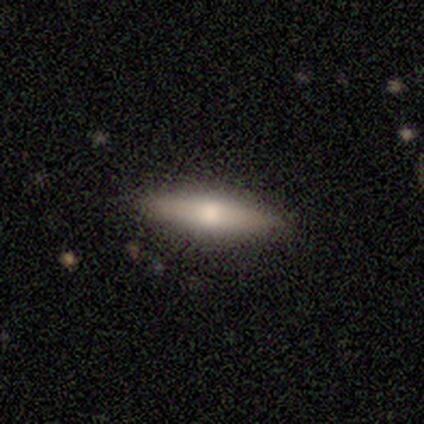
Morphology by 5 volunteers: Volunteers were most divided on "how rounded": cigar-shaped: 60%, in between: 40%, round: 0%. More confident: smooth or featured — smooth (100%); merging — none (100%).